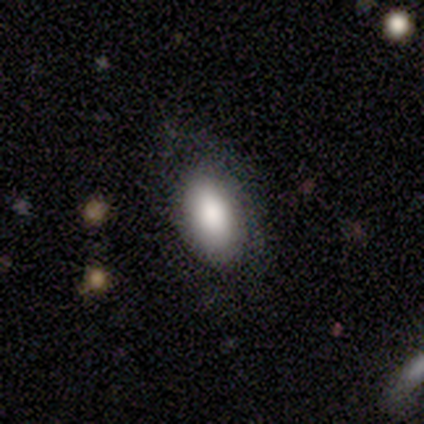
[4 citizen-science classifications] Smooth or featured: smooth — 75% (star or artifact — 25%)
How rounded: in between — 100%
Merging: none — 67% (major disturbance — 33%)